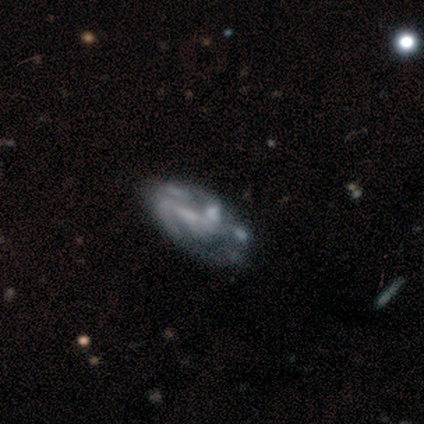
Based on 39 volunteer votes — Overall: featured or disk (67%). Edge-on disk: no (88%). Bar: no (52%; weak 39%). Spiral arms: yes (57%; no 43%). Spiral arm count: 2 (46%, tied with can't tell). Spiral winding: medium (46%; loose 31%). Bulge size: none (48%; moderate 35%). Merging: none (37%; major disturbance 26%).